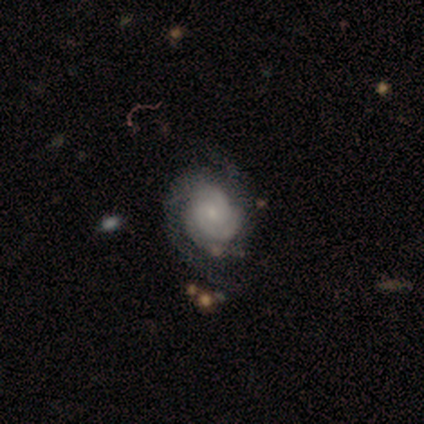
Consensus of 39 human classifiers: smooth-or-featured: featured or disk: 85% | smooth: 8% | star or artifact: 8%
  disk-edge-on: no: 100% | yes: 0%
    bar: no: 79% | weak: 21% | strong: 0%
    has-spiral-arms: yes: 97% | no: 3%
      spiral-winding: tight: 53% | medium: 34% | loose: 12%
      spiral-arm-count: 2: 56% | can't tell: 22% | 3: 16% | 4: 6% | 1: 0% | more than 4: 0%
    bulge-size: small: 79% | none: 9% | moderate: 6% | dominant: 3% | large: 3%
  merging: none: 50% | minor disturbance: 17% | major disturbance: 6% | merger: 0%